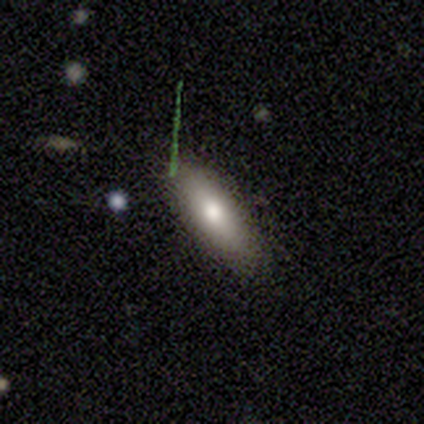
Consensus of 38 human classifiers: Smooth or featured?
  - smooth: 71% *
  - featured or disk: 26%
  - star or artifact: 3%
How rounded?
  - in between: 63% *
  - cigar-shaped: 37%
  - round: 0%
Merging?
  - none: 86% *
  - minor disturbance: 11%
  - merger: 3%
  - major disturbance: 0%